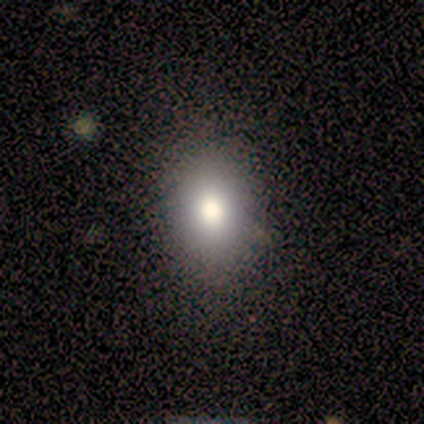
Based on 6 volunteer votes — smooth 100%, featured or disk 0%, star or artifact 0%. Down the decision tree: how rounded — round (50%, tied with in between); merging — none (50%, tied with minor disturbance).